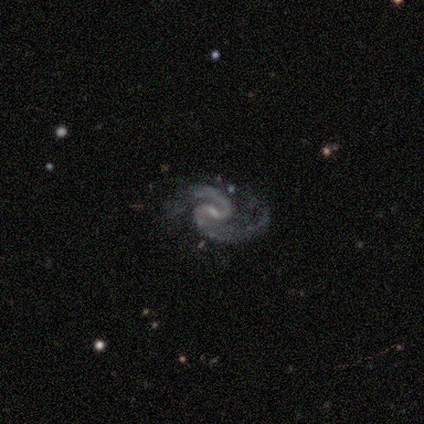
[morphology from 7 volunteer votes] Overall: featured or disk (100%). Edge-on disk: no (100%). Bar: weak (71%). Spiral arms: yes (100%). Spiral arm count: 2 (100%). Spiral winding: medium (86%). Bulge size: small (100%). Merging: none (71%).